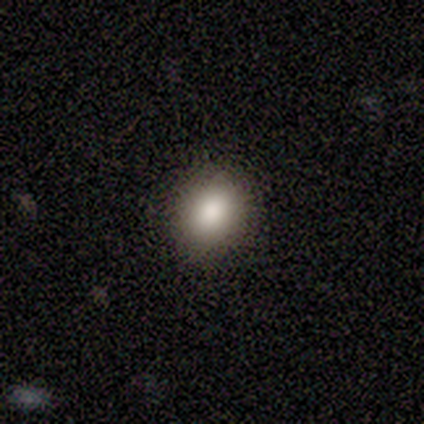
Smooth or featured? smooth (100%)
How rounded? round (100%)
Merging? none (80%)